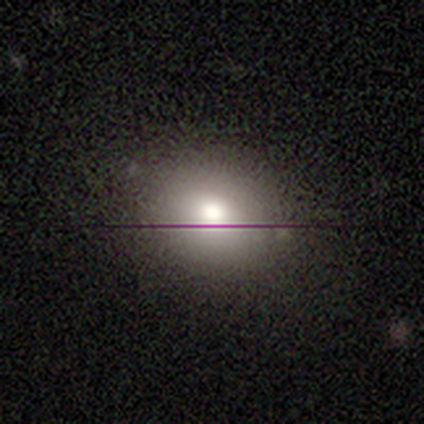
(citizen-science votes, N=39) Smooth or featured? smooth (64%)
How rounded? round (64%)
Merging? none (77%)